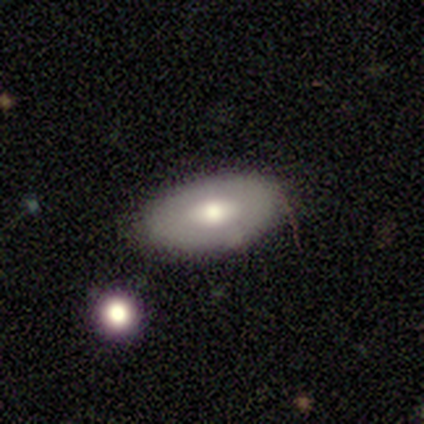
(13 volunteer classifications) Volunteers were most divided on "smooth or featured": featured or disk: 54%, smooth: 38%, star or artifact: 8%. More confident: edge-on disk — no (100%); spiral arms — no (86%); merging — none (75%); bar — no (71%); bulge size — moderate (71%).